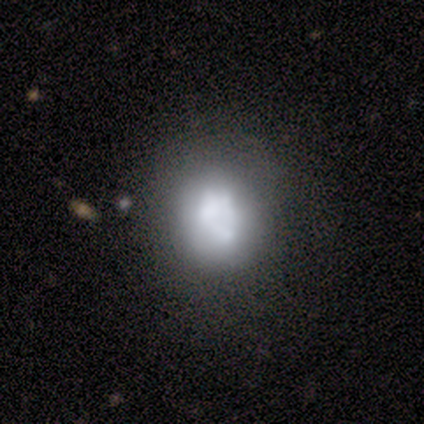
A featured or disk galaxy (58%) with no bar (100%), no spiral arms (100%) and no central bulge (57%). Merging: none (64%).